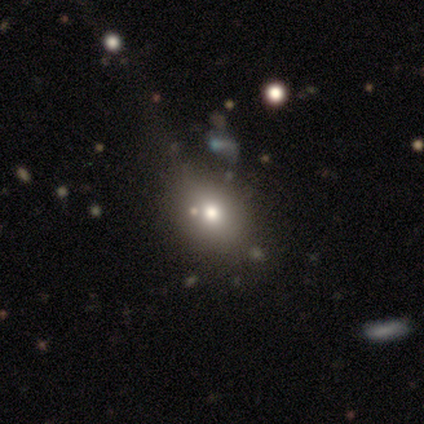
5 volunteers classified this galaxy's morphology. Volunteers were most divided on "how rounded" (2-way tie): round: 50%, in between: 50%, cigar-shaped: 0%. More confident: smooth or featured — smooth (80%); merging — none (75%).